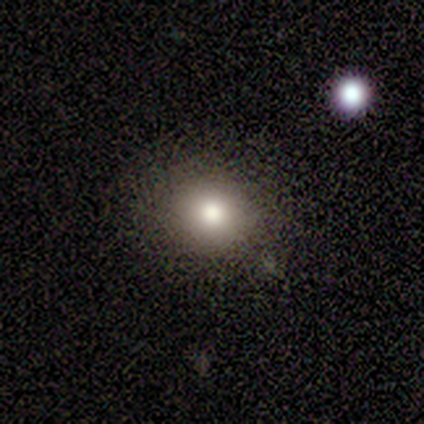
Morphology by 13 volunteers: Volunteers were most divided on "smooth or featured": smooth: 62%, star or artifact: 31%, featured or disk: 8%. More confident: how rounded — round (100%); merging — none (78%).